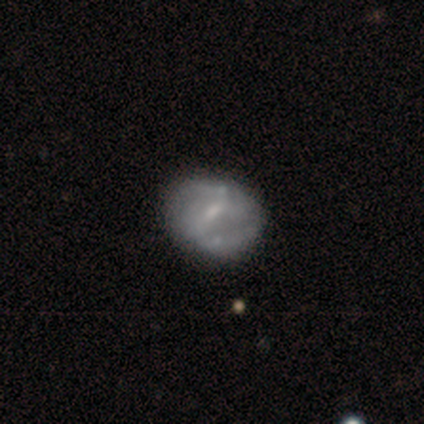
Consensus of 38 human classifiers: smooth_or_featured: featured or disk (p=0.79) [alt: smooth p=0.21]
disk_edge_on: no (p=1.00)
bar: weak (p=0.70) [alt: strong p=0.17]
has_spiral_arms: yes (p=0.67) [alt: no p=0.33]
spiral_winding: medium (p=0.35) [tied with: loose p=0.35]
spiral_arm_count: 2 (p=0.65) [alt: can't tell p=0.35]
bulge_size: small (p=0.60) [alt: none p=0.20]
merging: none (p=0.39) [alt: minor disturbance p=0.11]